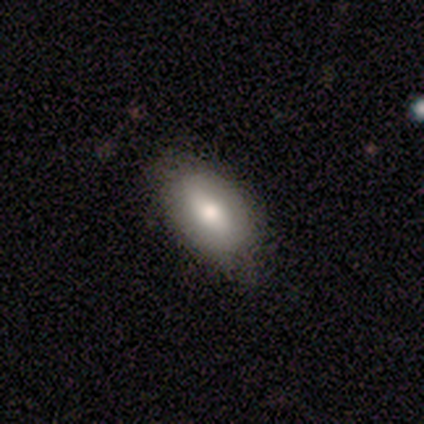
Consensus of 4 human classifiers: smooth-or-featured: smooth: 50% | featured or disk: 25% | star or artifact: 25%
  how-rounded: round: 50% (tied) | in between: 50% (tied) | cigar-shaped: 0%
  merging: none: 67% | minor disturbance: 33% | major disturbance: 0% | merger: 0%